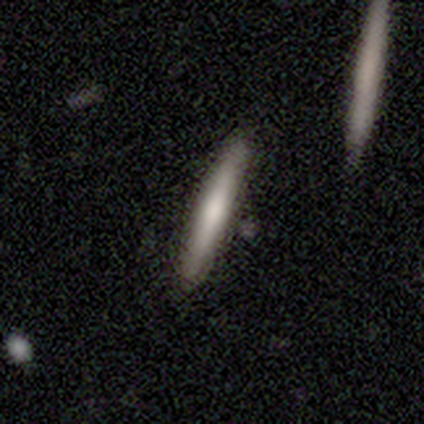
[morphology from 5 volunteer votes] This appears to be a featured or disk galaxy (60%) viewed edge-on (67%) with a rounded central bulge (100%). Merging: none (80%).